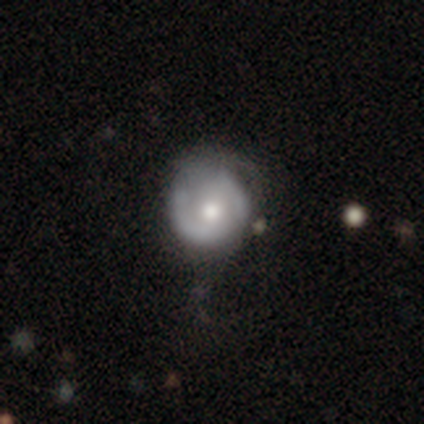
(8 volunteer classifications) smooth-or-featured: featured or disk: 88% | smooth: 12% | star or artifact: 0%
  disk-edge-on: no: 100% | yes: 0%
    bar: no: 86% | weak: 14% | strong: 0%
    has-spiral-arms: no: 57% | yes: 43%
    bulge-size: moderate: 100% | dominant: 0% | large: 0% | small: 0% | none: 0%
  merging: none: 62% | minor disturbance: 38% | major disturbance: 0% | merger: 0%